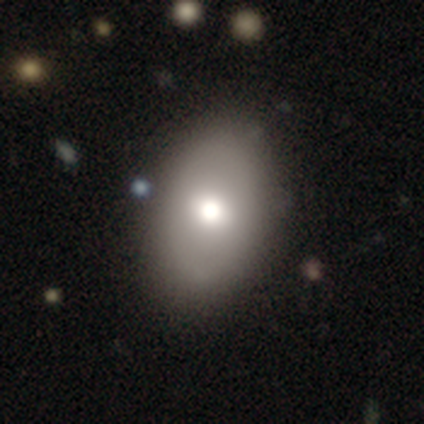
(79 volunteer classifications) Overall: smooth (67%). How rounded: in between (79%). Merging: none (62%).